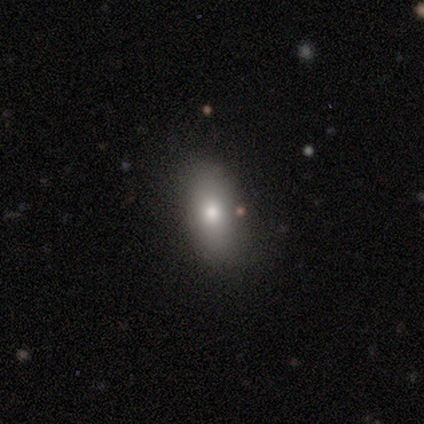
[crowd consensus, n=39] Smooth or featured? smooth (72%)
How rounded? in between (96%)
Merging? none (77%)